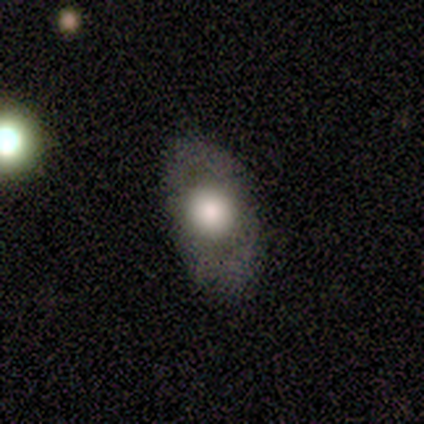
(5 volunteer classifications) smooth-or-featured: smooth: 60% | featured or disk: 20% | star or artifact: 20%
  how-rounded: in between: 67% | round: 33% | cigar-shaped: 0%
  merging: none: 75% | major disturbance: 25% | minor disturbance: 0% | merger: 0%